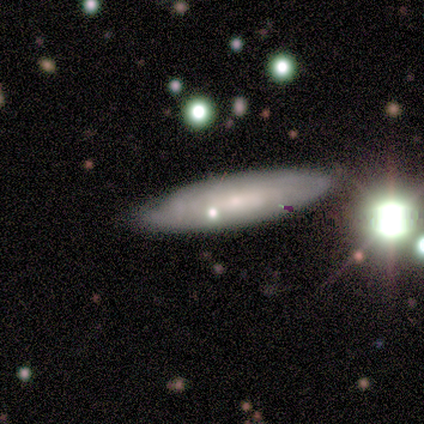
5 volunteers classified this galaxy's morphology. This appears to be a smooth galaxy with no disk features (80%) that is cigar-shaped (75%). Merging: none (100%).